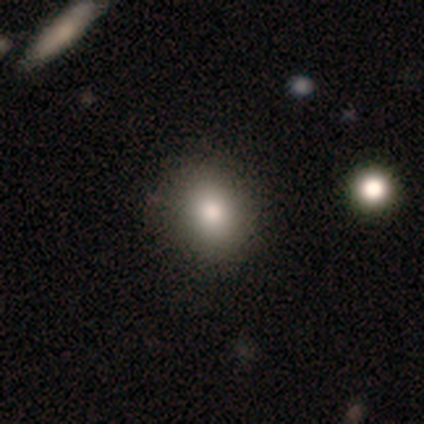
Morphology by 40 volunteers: This is clearly a smooth galaxy (85%). How rounded: possibly round (59%). Merging: likely none (68%).